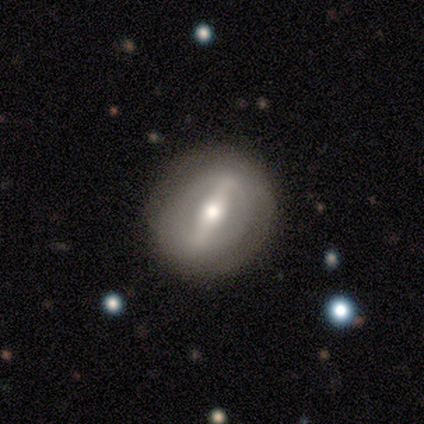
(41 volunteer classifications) Smooth or featured? featured or disk (59%)
Edge-on disk? no (83%)
Bar? strong (95%)
Spiral arms? no (80%)
Bulge size? moderate (60%)
Merging? none (79%)